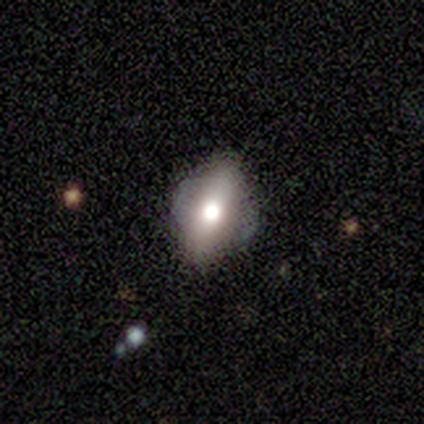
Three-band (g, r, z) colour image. It shows a smooth galaxy with no disk features (50%) that is in between round and cigar-shaped (100%). Merging: minor disturbance (67%).